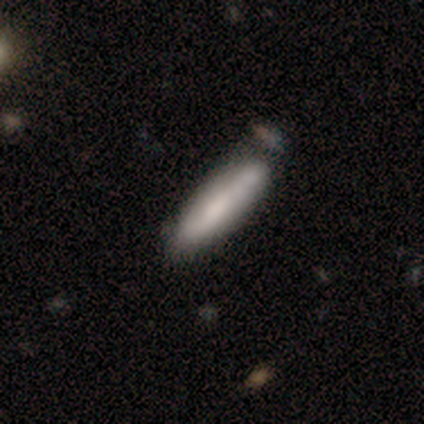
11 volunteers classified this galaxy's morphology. Smooth or featured: smooth — 82% (featured or disk — 18%)
How rounded: cigar-shaped — 89% (in between — 11%)
Merging: none — 55% (minor disturbance — 18%)